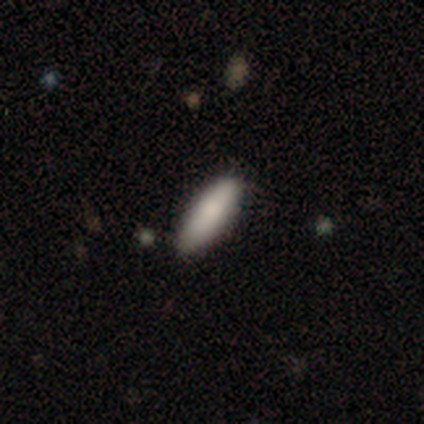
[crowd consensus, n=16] Smooth or featured: smooth — 88% (featured or disk — 6%)
How rounded: in between — 79% (cigar-shaped — 21%)
Merging: none — 100%